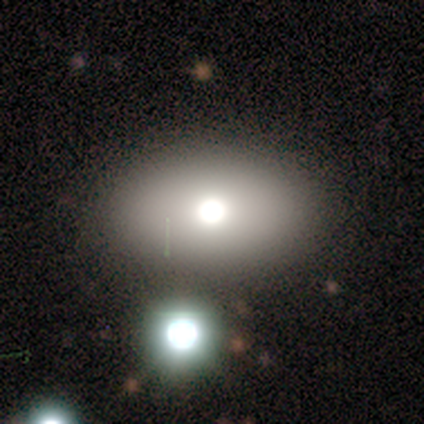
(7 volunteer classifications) Morphology: type=smooth (57%); roundness=round (75%); merging=none (80%).